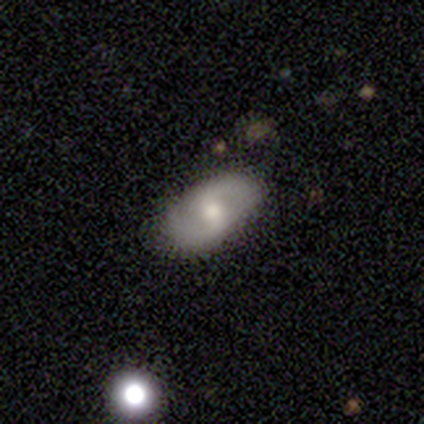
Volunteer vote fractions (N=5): Smooth or featured? featured or disk (60%)
Edge-on disk? no (100%)
Bar? weak (67%)
Spiral arms? yes (67%)
Spiral winding? tight (50%, tied with medium)
Spiral arm count? 2 (100%)
Bulge size? small (67%)
Merging? none (80%)